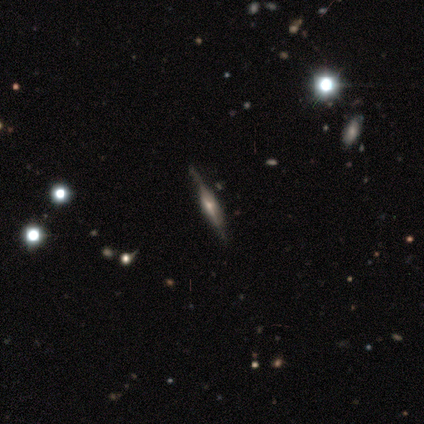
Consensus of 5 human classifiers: A featured or disk galaxy (80%) viewed edge-on (100%) with a rounded central bulge (75%).

Vote fractions:
- Smooth or featured? featured or disk: 80% / star or artifact: 20% / smooth: 0%
- Edge-on disk? yes: 100% / no: 0%
- Edge-on bulge? rounded: 75% / boxy: 25% / none: 0%
- Merging? none: 100% / minor disturbance: 0% / major disturbance: 0% / merger: 0%